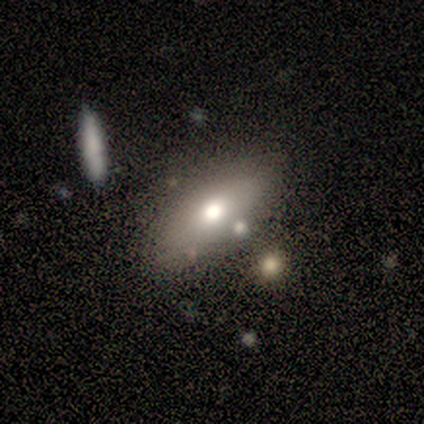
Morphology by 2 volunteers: Q: Smooth or featured?
A: featured or disk (100%)
Q: Edge-on disk?
A: yes (50%); tied with: no (50%)
Q: Edge-on bulge?
A: rounded (100%)
Q: Merging?
A: none (100%)